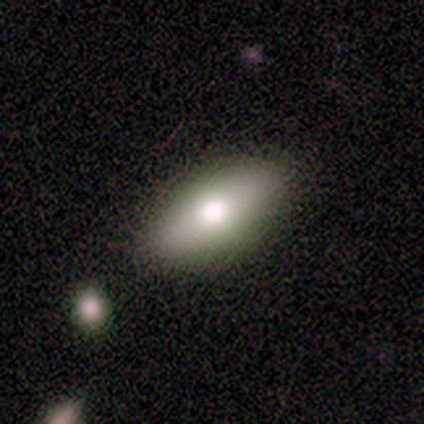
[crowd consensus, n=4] Smooth or featured? smooth (75%)
How rounded? cigar-shaped (67%)
Merging? none (67%)